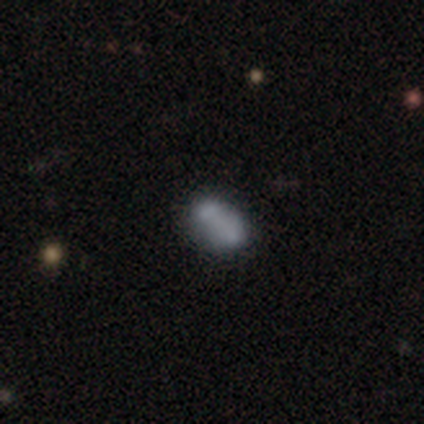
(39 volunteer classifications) This appears to be a smooth galaxy with no disk features (74%) that is in between round and cigar-shaped (83%). Merging: none (50%).